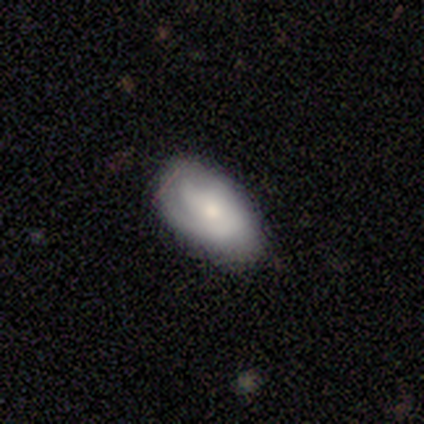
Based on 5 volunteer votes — smooth-or-featured: smooth: 60% | featured or disk: 20% | star or artifact: 20%
  how-rounded: in between: 67% | cigar-shaped: 33% | round: 0%
  merging: none: 100% | minor disturbance: 0% | major disturbance: 0% | merger: 0%